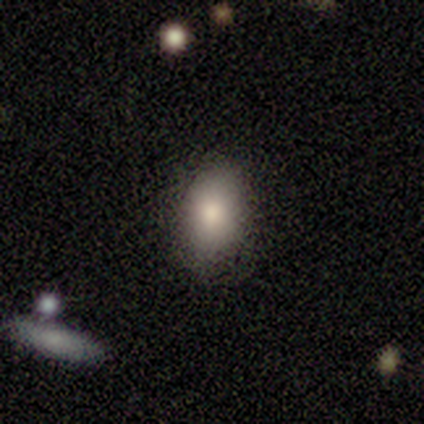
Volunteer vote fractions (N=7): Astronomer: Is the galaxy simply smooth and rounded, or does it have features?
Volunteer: smooth — 86%.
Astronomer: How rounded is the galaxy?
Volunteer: in between — 83%.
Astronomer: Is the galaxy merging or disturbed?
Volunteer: none — 71%.